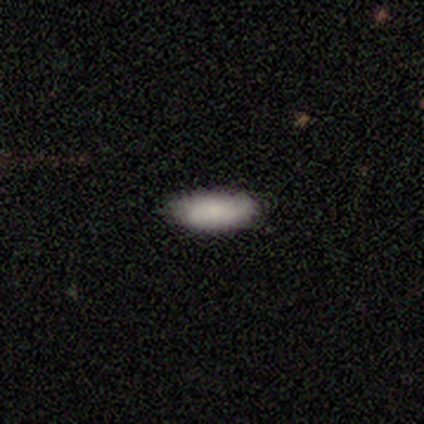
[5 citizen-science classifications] This is clearly a smooth galaxy (80%). How rounded: clearly in between (100%). Merging: clearly none (100%).